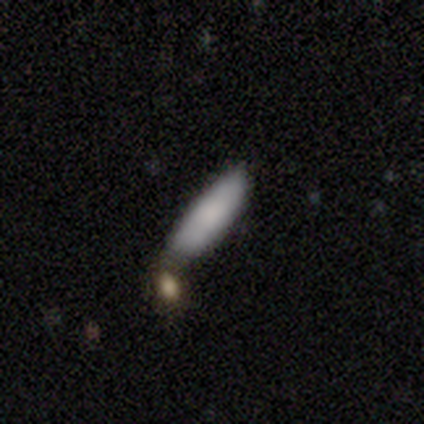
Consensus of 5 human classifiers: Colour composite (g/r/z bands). It shows a smooth galaxy with no disk features (100%) that is cigar-shaped (60%). Merging: none (100%).